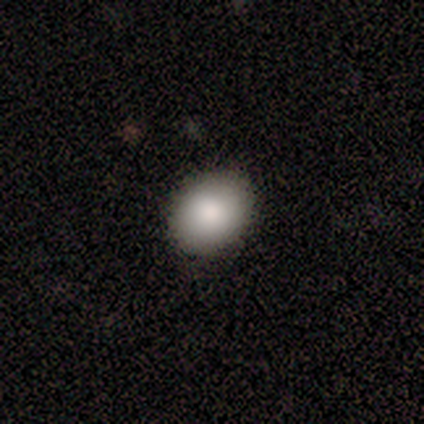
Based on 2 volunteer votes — Smooth or featured?
  - smooth: 50% * (tied)
  - star or artifact: 50% * (tied)
  - featured or disk: 0%
How rounded?
  - round: 100% *
  - in between: 0%
  - cigar-shaped: 0%
Merging?
  - none: 100% *
  - minor disturbance: 0%
  - major disturbance: 0%
  - merger: 0%